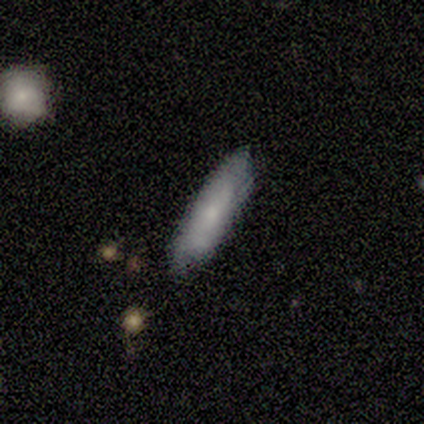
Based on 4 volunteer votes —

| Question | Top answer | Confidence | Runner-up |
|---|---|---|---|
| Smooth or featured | smooth | 75% | featured or disk (25%) |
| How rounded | cigar-shaped | 100% | — |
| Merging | none | 100% | — |